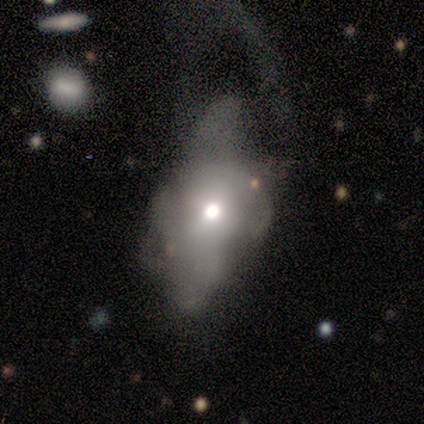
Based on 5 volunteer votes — Q: Smooth or featured?
A: featured or disk (60%); runner-up: smooth (40%)
Q: Edge-on disk?
A: yes (67%); runner-up: no (33%)
Q: Edge-on bulge?
A: rounded (100%)
Q: Merging?
A: major disturbance (60%); runner-up: none (20%)